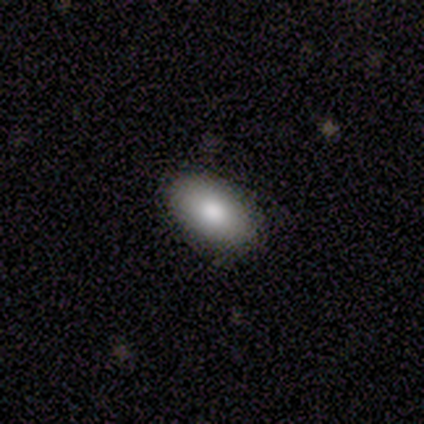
A smooth galaxy with no disk features (80%) that is in between round and cigar-shaped (75%).

Vote fractions:
- Smooth or featured? smooth: 80% / star or artifact: 20% / featured or disk: 0%
- How rounded? in between: 75% / round: 25% / cigar-shaped: 0%
- Merging? none: 75% / minor disturbance: 25% / major disturbance: 0% / merger: 0%